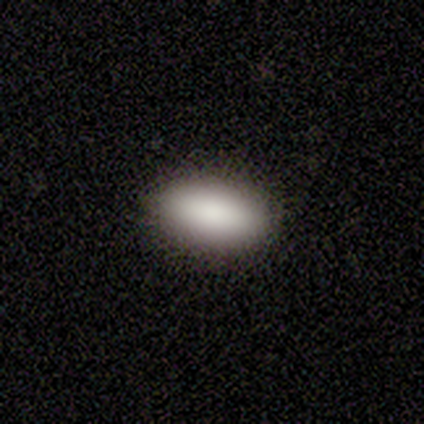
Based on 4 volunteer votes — Consensus on every question: smooth or featured — smooth (100%); how rounded — in between (100%); merging — none (100%).